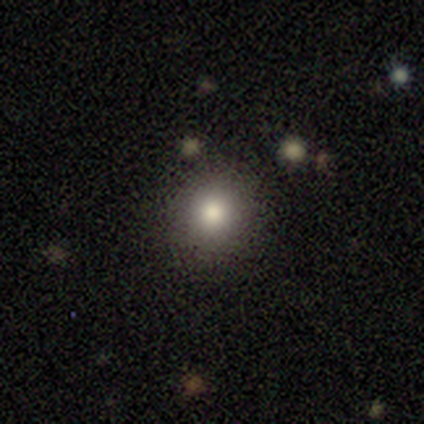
smooth_or_featured: smooth (p=0.80) [alt: featured or disk p=0.10]
how_rounded: round (p=0.88) [alt: in between p=0.09]
merging: none (p=0.97) [alt: minor disturbance p=0.03]